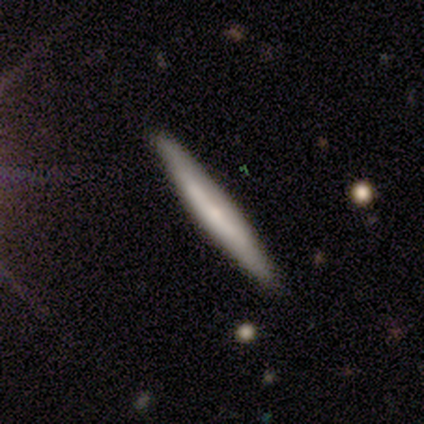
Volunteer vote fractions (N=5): This is likely a smooth galaxy (60%). How rounded: clearly cigar-shaped (100%). Merging: clearly none (80%).